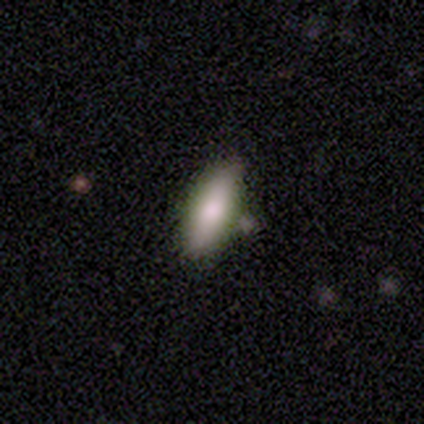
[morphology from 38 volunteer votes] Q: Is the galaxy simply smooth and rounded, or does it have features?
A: smooth — 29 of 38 (76%).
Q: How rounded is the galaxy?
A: in between — 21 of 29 (72%).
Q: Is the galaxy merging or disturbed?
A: none — 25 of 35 (71%).